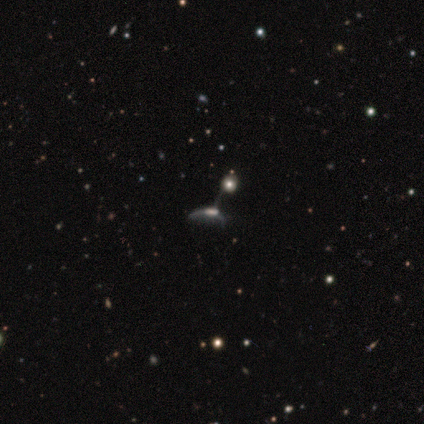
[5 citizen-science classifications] This appears to be a featured or disk galaxy (80%) with no bar (100%), no spiral arms (100%) and no central bulge (50%). Merging: major disturbance (60%).